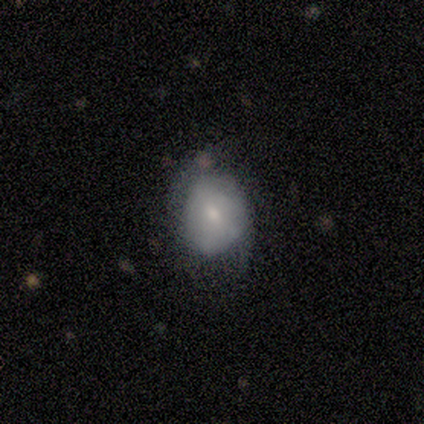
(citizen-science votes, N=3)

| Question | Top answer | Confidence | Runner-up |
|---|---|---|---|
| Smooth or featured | featured or disk | 67% | smooth (33%) |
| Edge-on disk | no | 100% | — |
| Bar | weak | 50% | tied: no (50%) |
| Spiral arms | yes | 100% | — |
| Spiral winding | tight | 50% | tied: medium (50%) |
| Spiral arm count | can't tell | 100% | — |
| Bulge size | moderate | 50% | tied: small (50%) |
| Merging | minor disturbance | 67% | major disturbance (33%) |